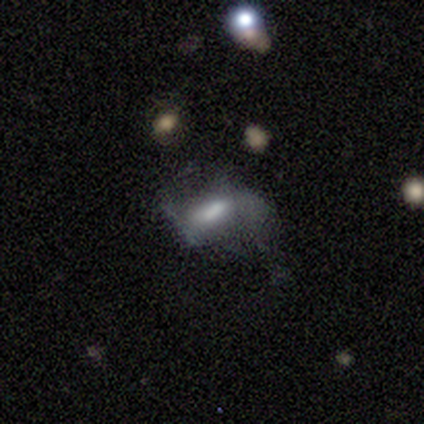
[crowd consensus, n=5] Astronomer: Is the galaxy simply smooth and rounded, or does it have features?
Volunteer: smooth — 60% (runner-up: featured or disk, 40%).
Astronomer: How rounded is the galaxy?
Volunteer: in between — 67%.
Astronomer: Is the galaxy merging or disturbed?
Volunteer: major disturbance — 100%.